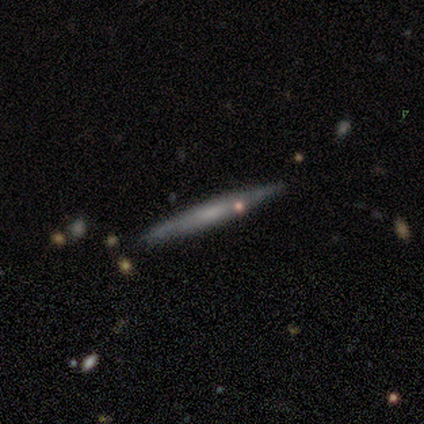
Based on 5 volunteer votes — Q: Smooth or featured?
A: smooth (60%); runner-up: featured or disk (40%)
Q: How rounded?
A: cigar-shaped (100%)
Q: Merging?
A: none (100%)